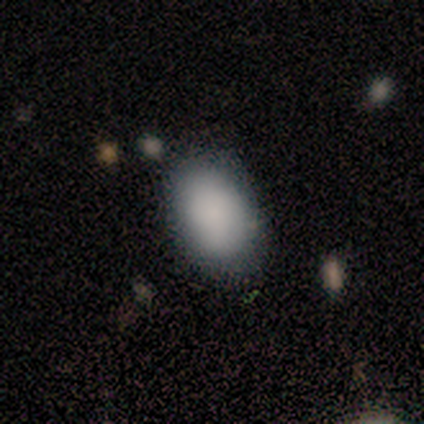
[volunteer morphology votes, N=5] This is likely a smooth galaxy (60%). How rounded: clearly in between (100%). Merging: clearly none (100%).